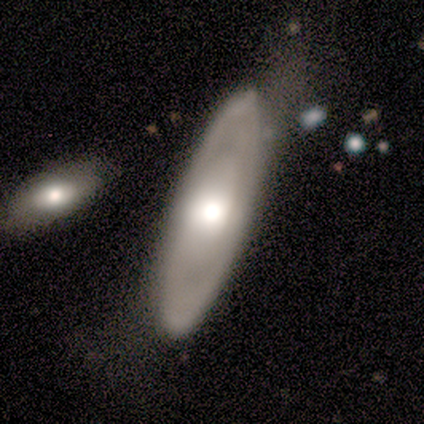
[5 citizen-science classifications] Smooth or featured: featured or disk — 60% (smooth — 40%)
Edge-on disk: no — 67% (yes — 33%)
Bar: weak — 50% (tied with no — 50%)
Spiral arms: yes — 100%
Spiral winding: tight — 100%
Spiral arm count: can't tell — 100%
Bulge size: moderate — 100%
Merging: minor disturbance — 60% (none — 40%)